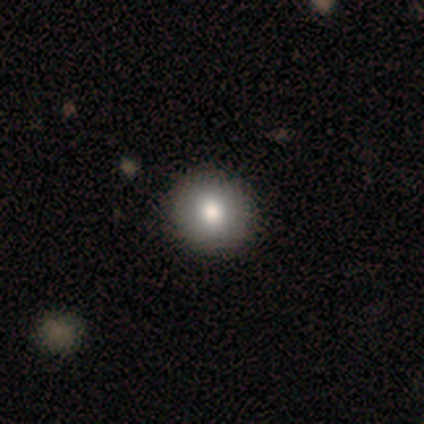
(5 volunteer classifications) Smooth or featured?
  - smooth: 80% *
  - star or artifact: 20%
  - featured or disk: 0%
How rounded?
  - round: 100% *
  - in between: 0%
  - cigar-shaped: 0%
Merging?
  - none: 100% *
  - minor disturbance: 0%
  - major disturbance: 0%
  - merger: 0%